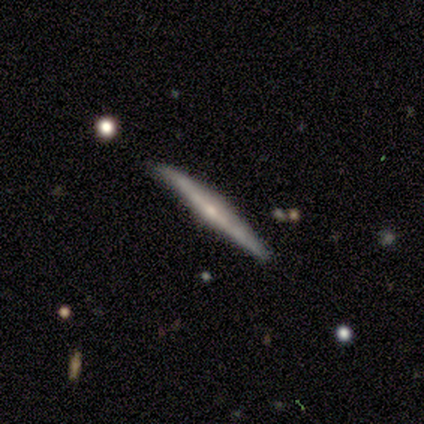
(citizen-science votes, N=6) Smooth or featured: featured or disk — 100%
Edge-on disk: yes — 100%
Edge-on bulge: rounded — 83% (boxy — 17%)
Merging: none — 67% (minor disturbance — 33%)